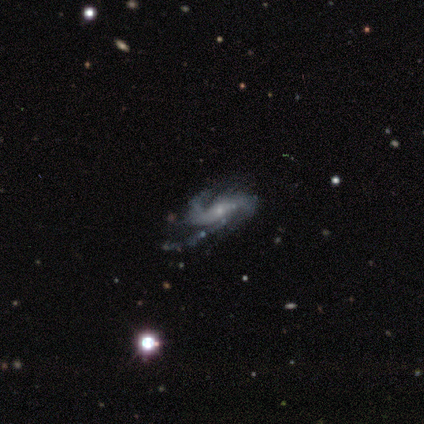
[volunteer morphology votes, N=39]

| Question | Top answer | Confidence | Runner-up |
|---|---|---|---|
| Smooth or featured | featured or disk | 92% | star or artifact (5%) |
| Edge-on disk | no | 89% | yes (11%) |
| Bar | no | 62% | weak (28%) |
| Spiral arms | yes | 100% | — |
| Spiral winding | loose | 53% | medium (41%) |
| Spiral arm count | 2 | 75% | 3 (12%) |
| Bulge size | small | 75% | moderate (22%) |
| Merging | none | 46% | minor disturbance (32%) |